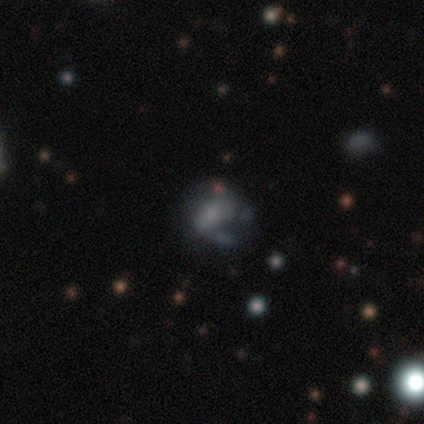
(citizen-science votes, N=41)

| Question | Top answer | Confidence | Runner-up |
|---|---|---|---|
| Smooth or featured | featured or disk | 44% | smooth (41%) |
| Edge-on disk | no | 94% | yes (6%) |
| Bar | no | 71% | weak (24%) |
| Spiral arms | no | 53% | yes (47%) |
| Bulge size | none | 53% | moderate (29%) |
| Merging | minor disturbance | 37% | none (34%) |